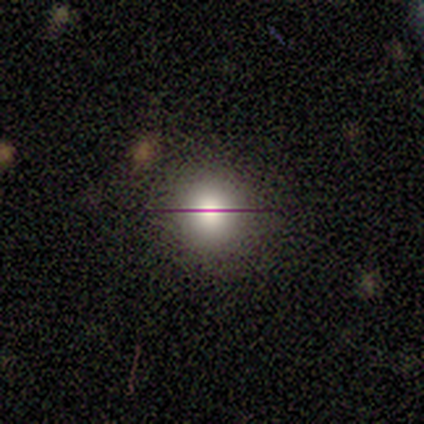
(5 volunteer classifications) A smooth galaxy with no disk features (80%) that is round (100%). Merging: none (50%, tied with minor disturbance).